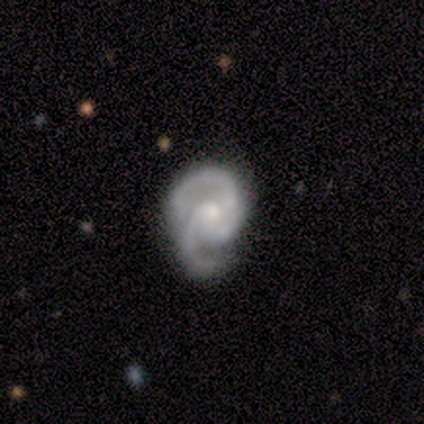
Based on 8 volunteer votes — Q: Smooth or featured?
A: featured or disk (100%)
Q: Edge-on disk?
A: no (100%)
Q: Bar?
A: no (88%); runner-up: weak (12%)
Q: Spiral arms?
A: yes (100%)
Q: Spiral winding?
A: medium (38%); tied with: loose (38%)
Q: Spiral arm count?
A: 3 (50%); runner-up: 2 (38%)
Q: Bulge size?
A: moderate (50%); runner-up: small (38%)
Q: Merging?
A: minor disturbance (50%); runner-up: none (38%)